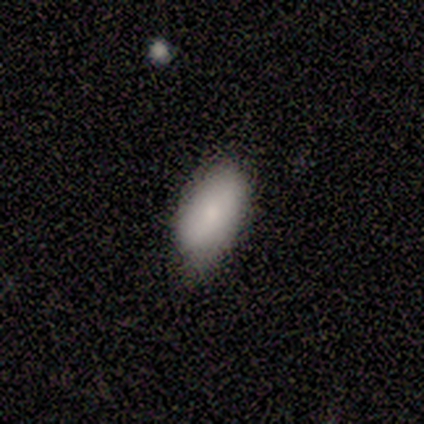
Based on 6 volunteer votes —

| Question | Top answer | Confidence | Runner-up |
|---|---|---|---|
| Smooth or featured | smooth | 83% | star or artifact (17%) |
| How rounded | in between | 80% | round (20%) |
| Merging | none | 60% | minor disturbance (40%) |